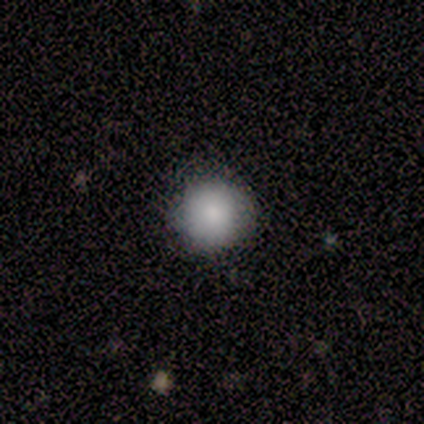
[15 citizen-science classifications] Overall: smooth (93%). How rounded: round (100%). Merging: none (80%).